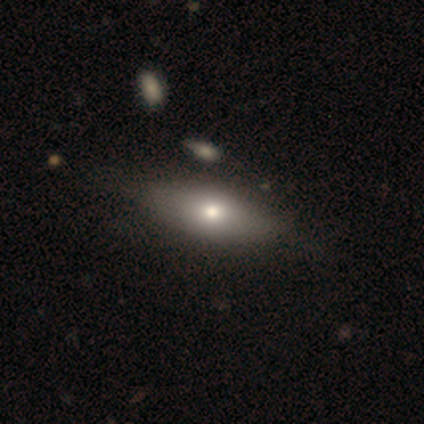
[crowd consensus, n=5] Smooth or featured? 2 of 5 (40%, tied with featured or disk) said smooth. How rounded? 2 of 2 (100%) said in between. Merging? 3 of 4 (75%) said none.